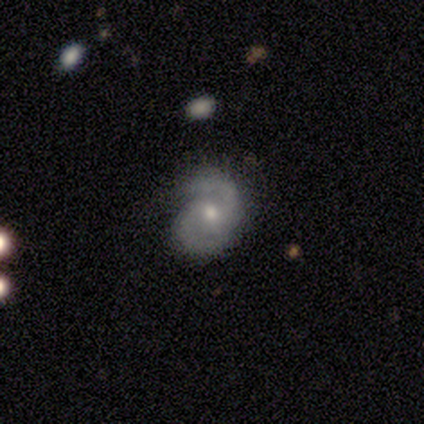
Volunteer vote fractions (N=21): This appears to be a featured or disk galaxy (86%) with no bar (59%), 2 (88%) medium (47%) spiral arms (100%) and a moderate central bulge (59%). Merging: none (76%).